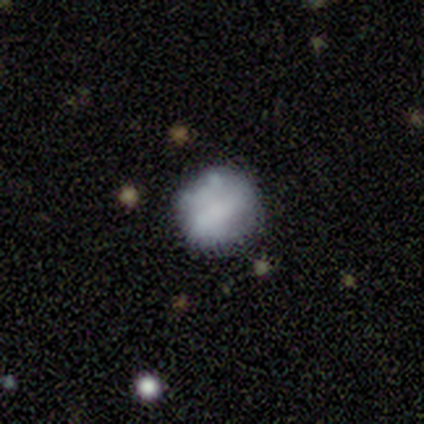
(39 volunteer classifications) Overall: smooth (51%; featured or disk 38%). How rounded: round (75%). Merging: none (60%; minor disturbance 20%).